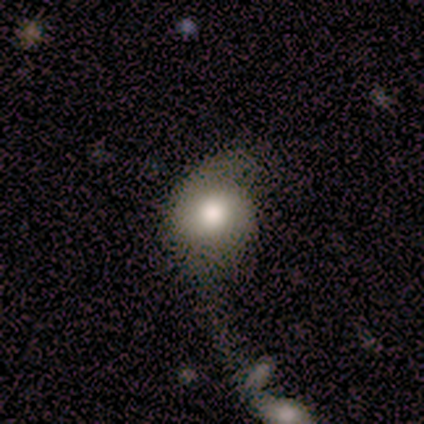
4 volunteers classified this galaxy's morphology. featured or disk 50%, smooth 25%, star or artifact 25%. Down the decision tree: edge-on disk — no (100%); bar — no (100%); spiral arms — yes (50%, tied with no); spiral arm count — 2 (100%); spiral winding — medium (100%); bulge size — large (100%); merging — none (33%, tied with minor disturbance and major disturbance).